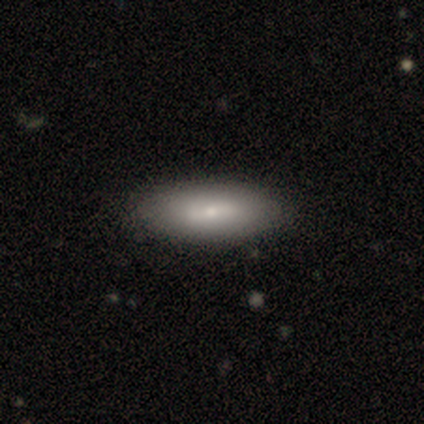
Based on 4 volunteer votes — smooth_or_featured: smooth (p=0.50) [tied with: featured or disk p=0.50]
how_rounded: in between (p=0.50) [tied with: cigar-shaped p=0.50]
merging: none (p=1.00)